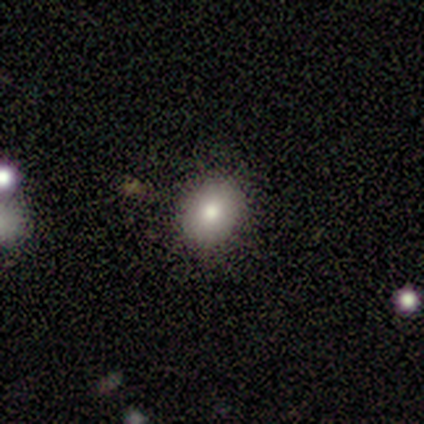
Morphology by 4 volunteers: type=smooth (100%); roundness=round (50%, tied with in between); merging=none (100%).